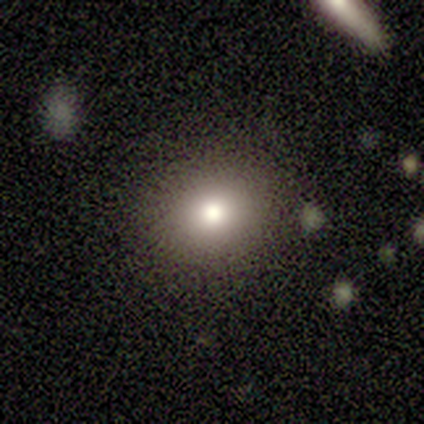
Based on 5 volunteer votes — Smooth or featured? 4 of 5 (80%) said smooth. How rounded? 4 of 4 (100%) said round. Merging? 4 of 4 (100%) said none.